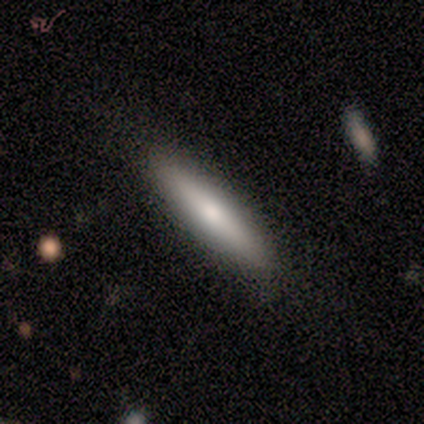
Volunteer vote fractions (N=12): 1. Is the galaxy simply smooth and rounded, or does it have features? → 58% smooth, 42% featured or disk, 0% star or artifact.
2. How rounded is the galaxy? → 86% cigar-shaped, 14% in between, 0% round.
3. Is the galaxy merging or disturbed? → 75% none, 25% minor disturbance, 0% major disturbance, 0% merger.